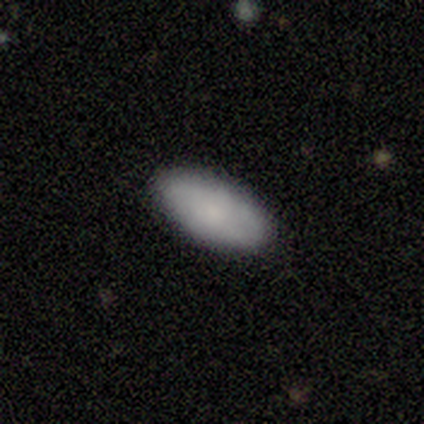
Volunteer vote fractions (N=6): Smooth or featured? 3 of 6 (50%, tied with featured or disk) said smooth. How rounded? 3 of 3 (100%) said in between. Merging? 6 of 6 (100%) said none.